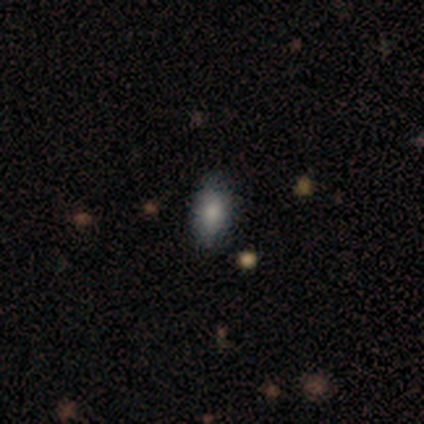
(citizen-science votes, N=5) A smooth galaxy with no disk features (80%) that is in between round and cigar-shaped (100%). Merging: none (80%).